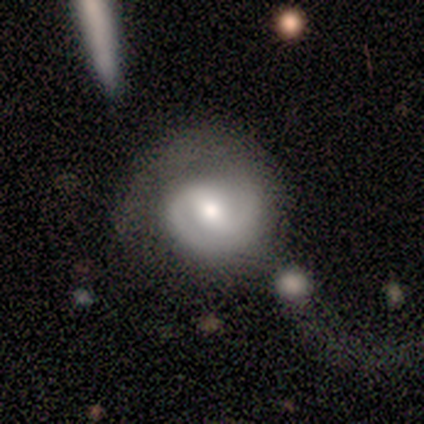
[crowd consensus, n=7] Smooth or featured? 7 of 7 (100%) said featured or disk. Edge-on disk? 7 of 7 (100%) said no. Bar? 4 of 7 (57%) said weak. Spiral arms? 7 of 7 (100%) said yes. Spiral winding? 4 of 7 (57%) said medium. Spiral arm count? 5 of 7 (71%) said 2. Bulge size? 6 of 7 (86%) said moderate. Merging? 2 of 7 (29%, tied with minor disturbance and major disturbance) said none.